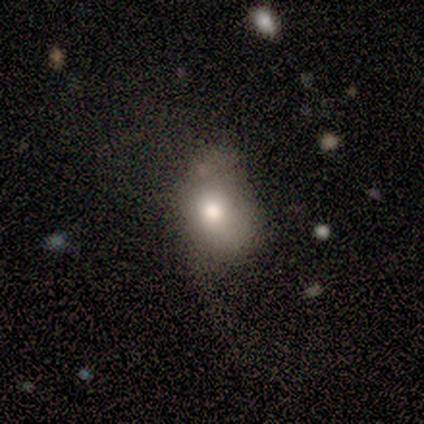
smooth_or_featured: smooth (p=0.50) [alt: featured or disk p=0.25]
how_rounded: in between (p=1.00)
merging: major disturbance (p=0.67) [alt: none p=0.33]